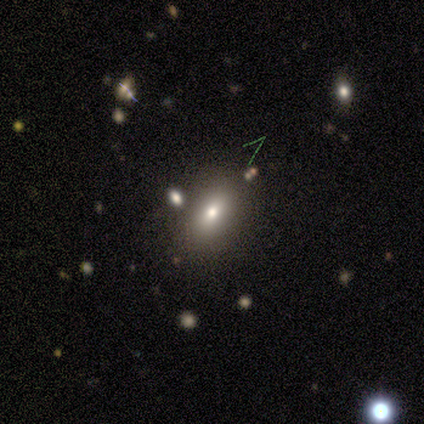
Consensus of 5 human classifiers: Morphology: type=smooth (60%); roundness=in between (100%); merging=none (75%).